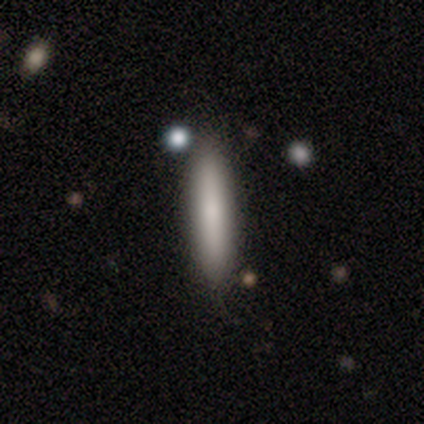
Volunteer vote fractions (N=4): Morphology: type=smooth (75%); roundness=cigar-shaped (100%); merging=none (67%).